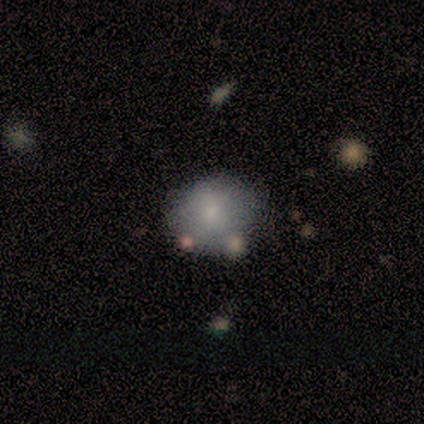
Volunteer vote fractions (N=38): Overall: smooth (82%). How rounded: round (74%). Merging: none (76%).